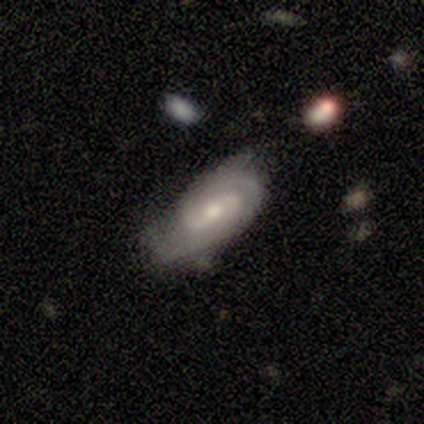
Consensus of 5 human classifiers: A featured or disk galaxy (80%) with a weak bar (75%), 2 (100%) tight (100%) spiral arms (50%, tied with no) and a moderate central bulge (50%, tied with small). Merging: none (80%).